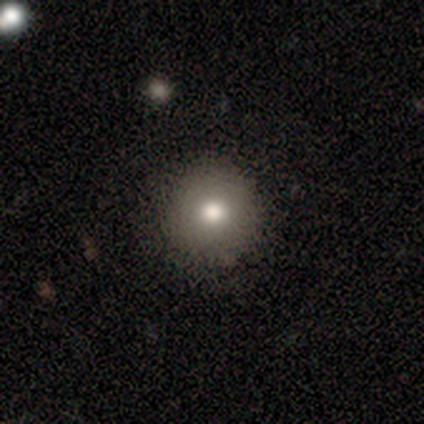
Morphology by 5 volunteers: A smooth galaxy with no disk features (80%) that is round (100%). Merging: none (100%).